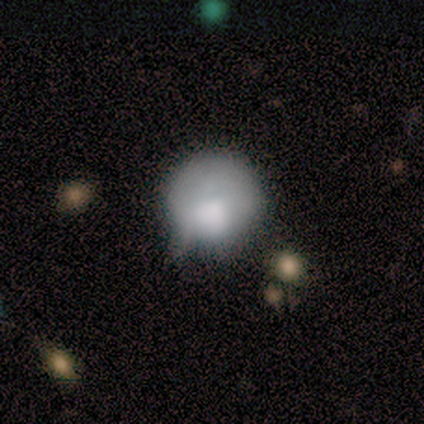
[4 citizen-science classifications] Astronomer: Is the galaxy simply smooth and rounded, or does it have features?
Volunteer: smooth — 100%.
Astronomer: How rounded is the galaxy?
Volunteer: round — 75%.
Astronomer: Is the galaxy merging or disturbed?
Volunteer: minor disturbance — 75%.